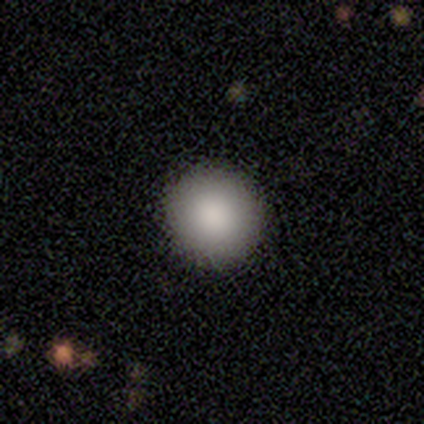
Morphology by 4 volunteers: smooth_or_featured: smooth (p=1.00)
how_rounded: round (p=1.00)
merging: none (p=1.00)